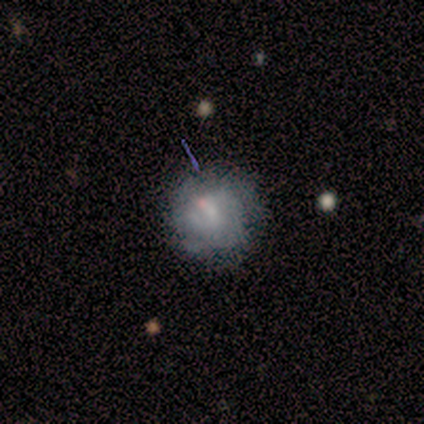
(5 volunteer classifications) smooth_or_featured: featured or disk (p=1.00)
disk_edge_on: no (p=1.00)
bar: no (p=0.80) [alt: weak p=0.20]
has_spiral_arms: no (p=0.80) [alt: yes p=0.20]
bulge_size: small (p=0.60) [alt: moderate p=0.20]
merging: none (p=0.60) [alt: minor disturbance p=0.40]